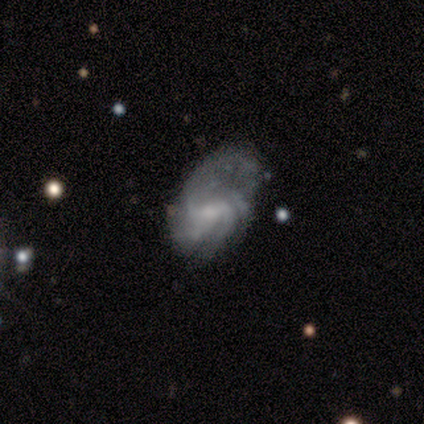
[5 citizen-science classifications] A featured or disk galaxy (80%) with a weak bar (75%), 4 (50%, tied with can't tell) tight (75%) spiral arms (100%) and a moderate central bulge (50%, tied with small). Merging: minor disturbance (75%).